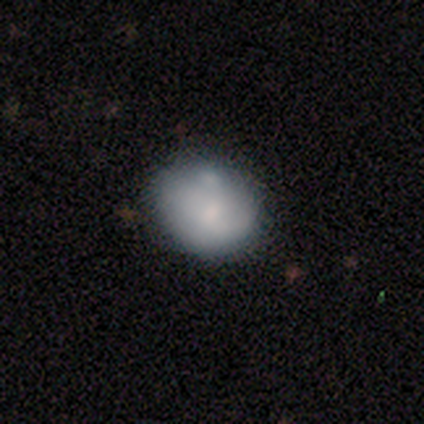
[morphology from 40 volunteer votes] This is possibly a smooth galaxy (57%). How rounded: possibly in between (52%). Merging: possibly none (54%).